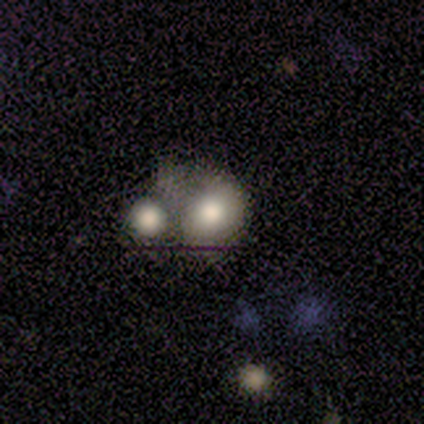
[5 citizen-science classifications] smooth-or-featured: smooth: 60% | featured or disk: 40% | star or artifact: 0%
  how-rounded: round: 67% | in between: 33% | cigar-shaped: 0%
  merging: merger: 60% | none: 40% | minor disturbance: 0% | major disturbance: 0%